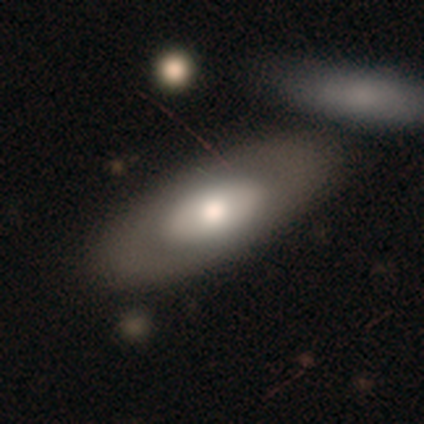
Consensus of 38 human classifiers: Volunteers were most divided on "smooth or featured": smooth: 61%, featured or disk: 26%, star or artifact: 13%. More confident: how rounded — in between (83%); merging — none (73%).